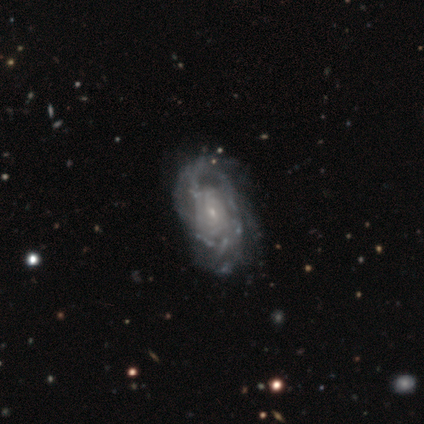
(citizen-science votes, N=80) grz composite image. It shows a featured or disk galaxy (94%) with no bar (77%), tight (66%) spiral arms (84%) and a small central bulge (88%). Merging: none (42%).